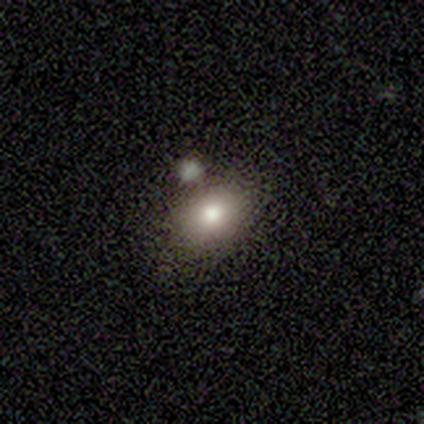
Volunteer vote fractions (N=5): A smooth galaxy with no disk features (80%) that is in between round and cigar-shaped (100%). Merging: none (40%, tied with minor disturbance).